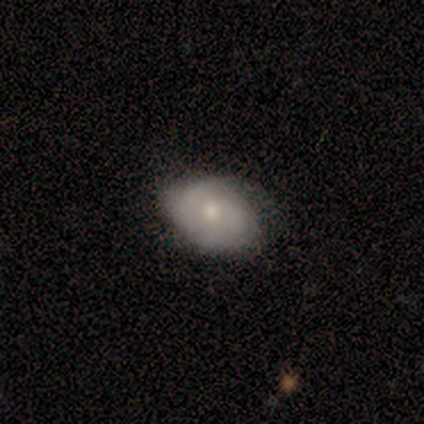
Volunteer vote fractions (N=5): This is clearly a smooth galaxy (80%). How rounded: likely in between (75%). Merging: likely none (60%).